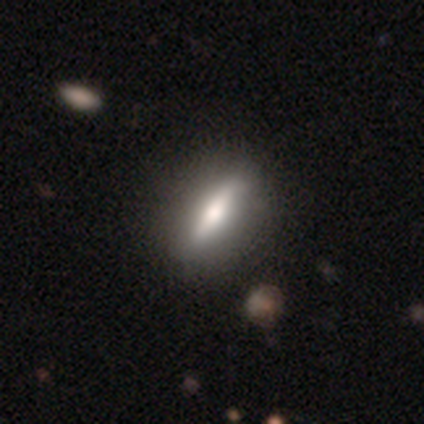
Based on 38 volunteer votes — smooth_or_featured: smooth (p=0.50) [alt: featured or disk p=0.47]
how_rounded: in between (p=0.53) [alt: cigar-shaped p=0.47]
merging: none (p=0.65) [alt: minor disturbance p=0.05]